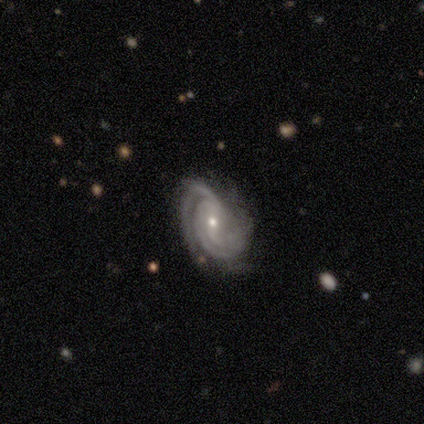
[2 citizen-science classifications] Smooth or featured?
  - featured or disk: 100% *
  - smooth: 0%
  - star or artifact: 0%
Edge-on disk?
  - no: 100% *
  - yes: 0%
Bar?
  - weak: 50% * (tied)
  - no: 50% * (tied)
  - strong: 0%
Spiral arms?
  - yes: 100% *
  - no: 0%
Spiral winding?
  - tight: 50% * (tied)
  - medium: 50% * (tied)
  - loose: 0%
Spiral arm count?
  - 2: 50% * (tied)
  - 3: 50% * (tied)
  - 1: 0%
  - 4: 0%
  - more than 4: 0%
  - can't tell: 0%
Bulge size?
  - small: 100% *
  - dominant: 0%
  - large: 0%
  - moderate: 0%
  - none: 0%
Merging?
  - minor disturbance: 100% *
  - none: 0%
  - major disturbance: 0%
  - merger: 0%